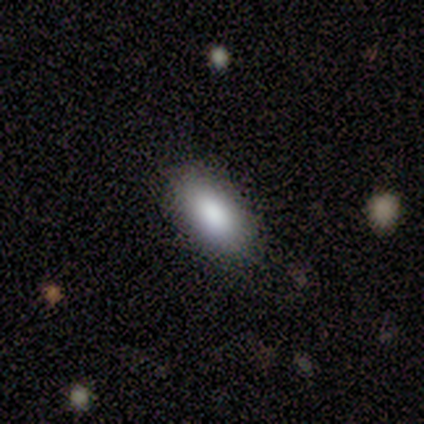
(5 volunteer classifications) A smooth galaxy with no disk features (100%) that is in between round and cigar-shaped (80%).

Vote fractions:
- Smooth or featured? smooth: 100% / featured or disk: 0% / star or artifact: 0%
- How rounded? in between: 80% / cigar-shaped: 20% / round: 0%
- Merging? none: 80% / minor disturbance: 20% / major disturbance: 0% / merger: 0%